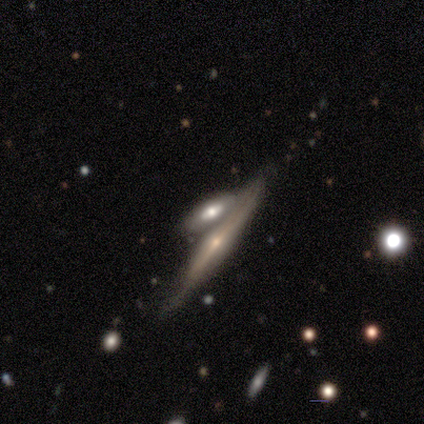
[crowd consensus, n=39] featured or disk 87%, star or artifact 8%, smooth 5%. Down the decision tree: edge-on disk — yes (88%); edge-on bulge — rounded (80%); merging — none (56%).